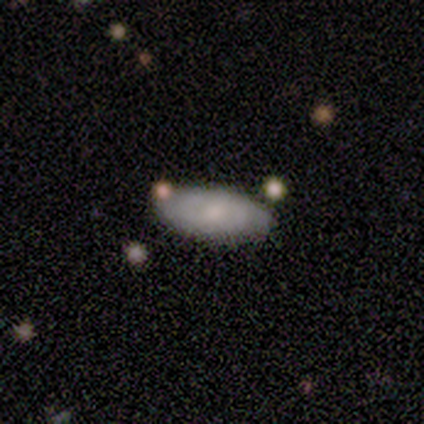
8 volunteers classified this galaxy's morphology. This appears to be a featured or disk galaxy (62%) with no bar (60%), 2 (60%) tight (80%) spiral arms (100%) and a small central bulge (60%). Merging: none (86%).